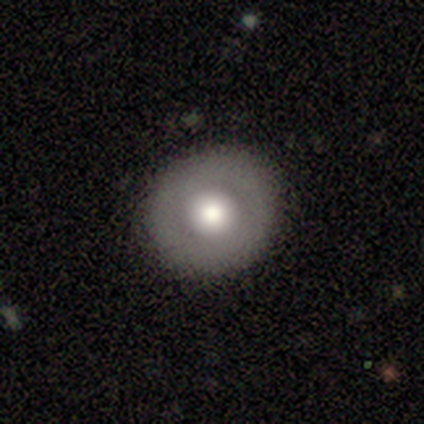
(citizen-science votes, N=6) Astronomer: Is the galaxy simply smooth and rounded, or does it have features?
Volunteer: smooth — 50%, tied with featured or disk at 50%.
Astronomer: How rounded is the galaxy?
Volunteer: round — 100%.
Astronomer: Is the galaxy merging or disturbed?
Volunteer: none — 100%.